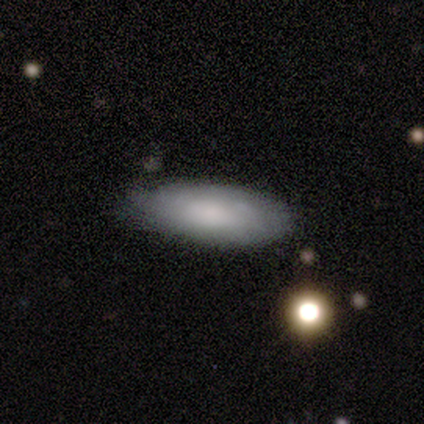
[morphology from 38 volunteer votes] smooth-or-featured: smooth: 71% | featured or disk: 24% | star or artifact: 5%
  how-rounded: in between: 81% | cigar-shaped: 19% | round: 0%
  merging: none: 67% | minor disturbance: 31% | merger: 3% | major disturbance: 0%